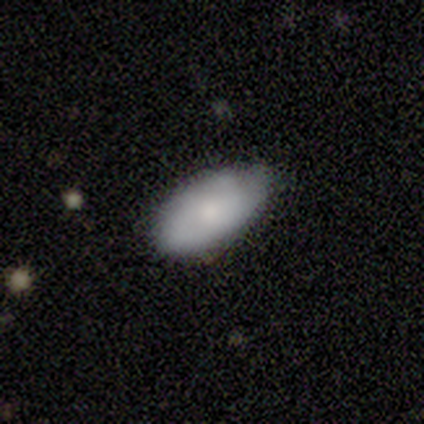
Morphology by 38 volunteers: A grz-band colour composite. It shows a smooth galaxy with no disk features (66%) that is in between round and cigar-shaped (92%). Merging: none (75%).